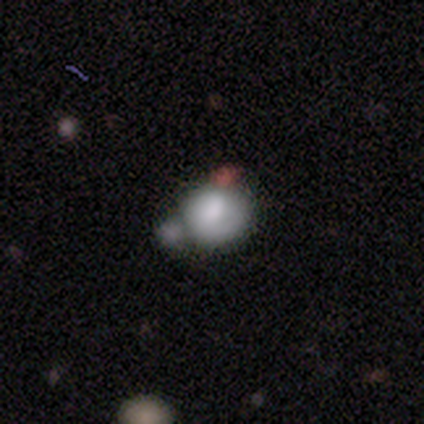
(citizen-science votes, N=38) Smooth or featured?
  - smooth: 68% *
  - featured or disk: 21%
  - star or artifact: 11%
How rounded?
  - round: 65% *
  - in between: 35%
  - cigar-shaped: 0%
Merging?
  - none: 41% *
  - merger: 35%
  - major disturbance: 15%
  - minor disturbance: 9%